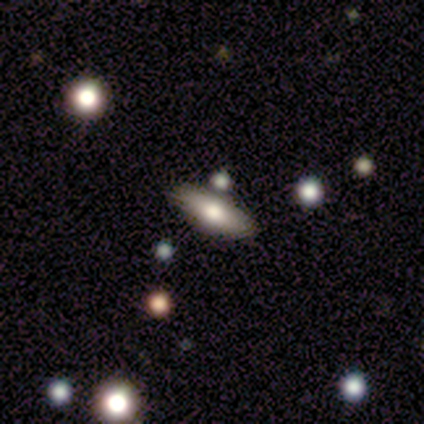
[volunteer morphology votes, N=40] Q: Smooth or featured?
A: smooth (62%); runner-up: featured or disk (28%)
Q: How rounded?
A: in between (64%); runner-up: cigar-shaped (36%)
Q: Merging?
A: none (64%); runner-up: minor disturbance (22%)